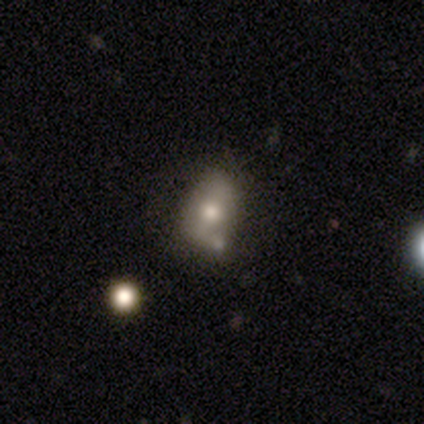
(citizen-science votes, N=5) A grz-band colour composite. It shows a smooth galaxy with no disk features (80%) that is in between round and cigar-shaped (100%). Merging: none (60%).